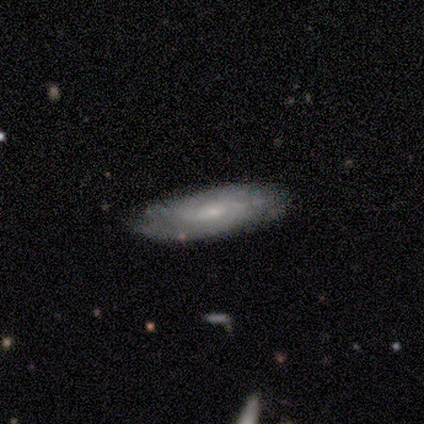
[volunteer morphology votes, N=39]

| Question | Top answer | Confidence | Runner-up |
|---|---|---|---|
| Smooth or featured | featured or disk | 51% | smooth (41%) |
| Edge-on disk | no | 90% | yes (10%) |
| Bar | no | 72% | weak (22%) |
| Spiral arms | yes | 94% | no (6%) |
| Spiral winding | tight | 53% | medium (35%) |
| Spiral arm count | can't tell | 59% | 2 (24%) |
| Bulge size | small | 72% | moderate (17%) |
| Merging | none | 61% | minor disturbance (22%) |